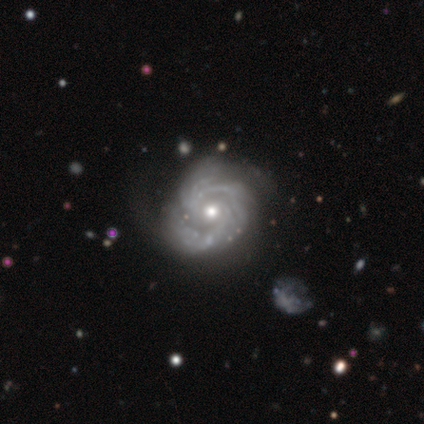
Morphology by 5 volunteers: Smooth or featured? 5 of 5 (100%) said featured or disk. Edge-on disk? 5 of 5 (100%) said no. Bar? 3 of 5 (60%) said no. Spiral arms? 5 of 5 (100%) said yes. Spiral winding? 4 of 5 (80%) said tight. Spiral arm count? 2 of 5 (40%, tied with 3) said 2. Bulge size? 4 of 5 (80%) said moderate. Merging? 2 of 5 (40%, tied with minor disturbance) said none.